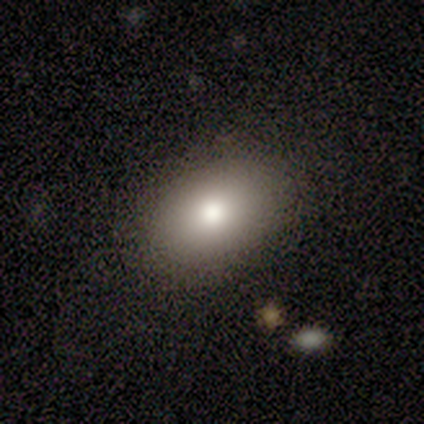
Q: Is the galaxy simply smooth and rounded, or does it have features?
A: smooth — 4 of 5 (80%).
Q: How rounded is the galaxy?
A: in between — 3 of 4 (75%).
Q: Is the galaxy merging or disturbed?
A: none — 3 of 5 (60%).